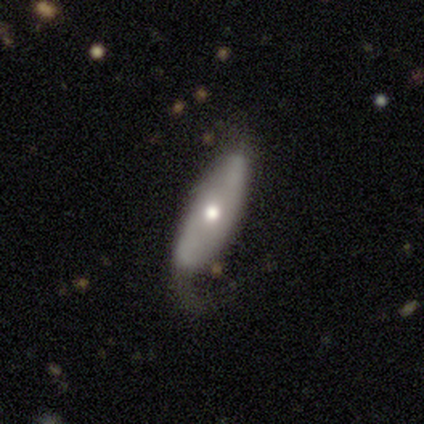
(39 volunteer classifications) This is possibly a featured or disk galaxy (59%). It is likely not viewed edge-on (78%). Bar: likely no (72%). Spiral arm pattern: possibly yes (50%, tied with no). Spiral arm count: likely 2 (78%). Spiral winding: possibly loose (56%). Central bulge: likely moderate (72%). Merging: possibly major disturbance (49%).